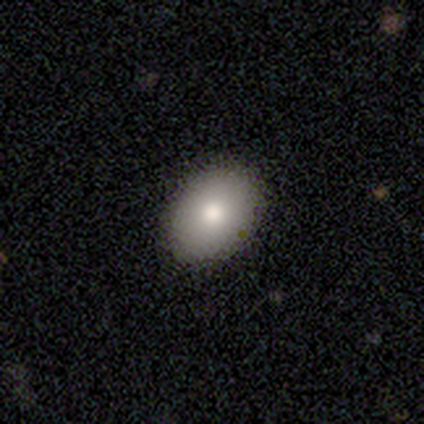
Volunteers were most divided on "how rounded": in between: 90%, round: 10%, cigar-shaped: 0%. More confident: merging — none (100%); smooth or featured — smooth (91%).